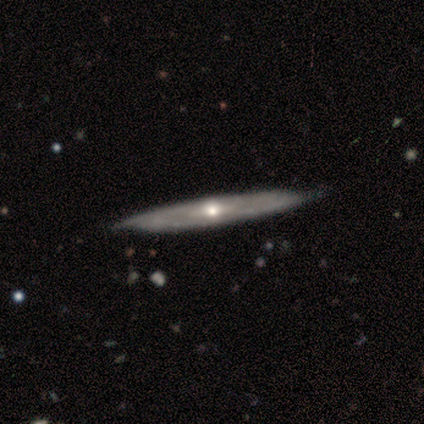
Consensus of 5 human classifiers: A featured or disk galaxy (100%) viewed edge-on (100%) with a rounded central bulge (80%).

Vote fractions:
- Smooth or featured? featured or disk: 100% / smooth: 0% / star or artifact: 0%
- Edge-on disk? yes: 100% / no: 0%
- Edge-on bulge? rounded: 80% / none: 20% / boxy: 0%
- Merging? none: 100% / minor disturbance: 0% / major disturbance: 0% / merger: 0%